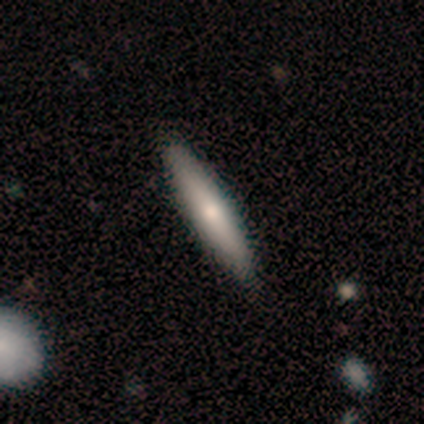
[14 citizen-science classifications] Morphology: type=smooth (57%); roundness=cigar-shaped (100%); merging=none (86%).